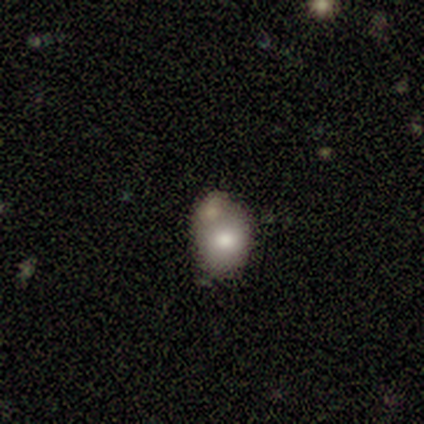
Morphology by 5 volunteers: This is likely a smooth galaxy (60%). How rounded: clearly in between (100%). Merging: likely minor disturbance (60%).